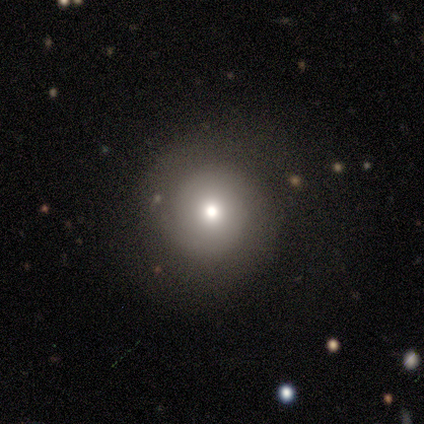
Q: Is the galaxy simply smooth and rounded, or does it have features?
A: featured or disk — 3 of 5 (60%).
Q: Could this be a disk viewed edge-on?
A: no — 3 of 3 (100%).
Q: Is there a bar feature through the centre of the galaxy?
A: no — 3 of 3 (100%).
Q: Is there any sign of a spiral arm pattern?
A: no — 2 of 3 (67%).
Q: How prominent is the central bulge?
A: large — 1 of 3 (33%, tied with moderate and small).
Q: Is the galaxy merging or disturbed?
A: none — 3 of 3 (100%).